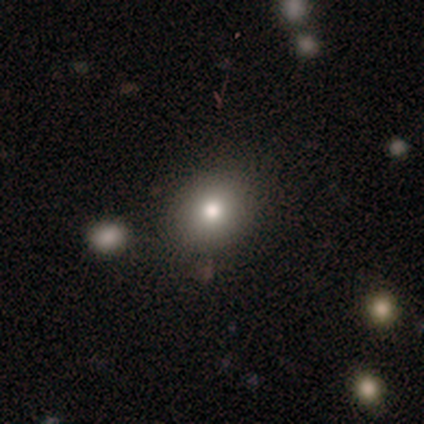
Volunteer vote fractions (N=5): This is marginally a smooth galaxy (40%, tied with star or artifact). How rounded: possibly round (50%, tied with in between). Merging: likely none (67%).